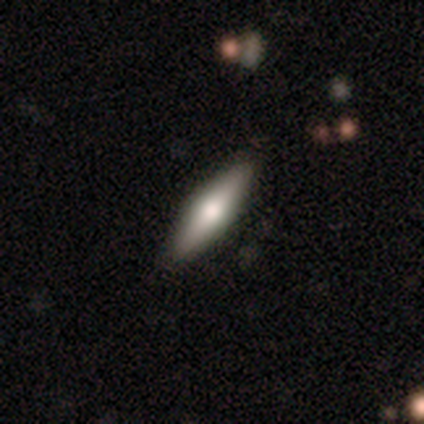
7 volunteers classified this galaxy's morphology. This appears to be a featured or disk galaxy (57%) viewed edge-on (100%) with a rounded central bulge (100%). Merging: none (83%).